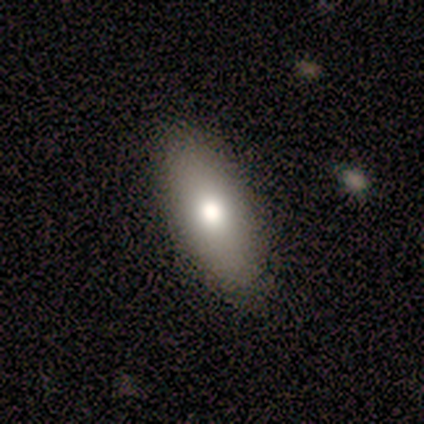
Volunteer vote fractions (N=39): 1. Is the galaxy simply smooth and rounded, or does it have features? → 77% smooth, 13% featured or disk, 10% star or artifact.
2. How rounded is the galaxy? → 87% in between, 13% cigar-shaped, 0% round.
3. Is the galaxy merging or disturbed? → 97% none, 3% minor disturbance, 0% major disturbance, 0% merger.